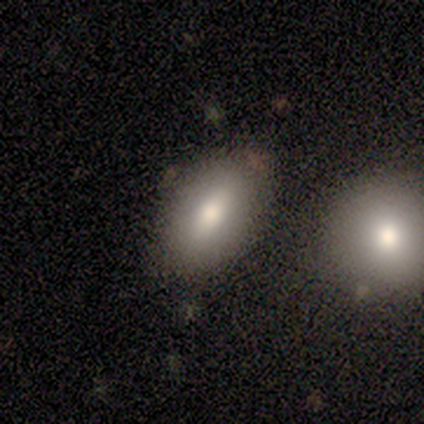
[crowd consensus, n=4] This is possibly a smooth galaxy (50%). How rounded: clearly in between (100%). Merging: clearly none (100%).